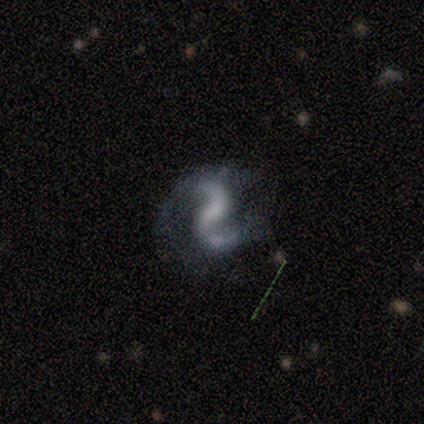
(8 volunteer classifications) smooth_or_featured: featured or disk (p=1.00)
disk_edge_on: no (p=1.00)
bar: weak (p=0.62) [alt: no p=0.25]
has_spiral_arms: yes (p=1.00)
spiral_winding: medium (p=0.50) [tied with: loose p=0.50]
spiral_arm_count: 2 (p=1.00)
bulge_size: small (p=0.75) [alt: none p=0.25]
merging: none (p=0.50) [alt: minor disturbance p=0.25]